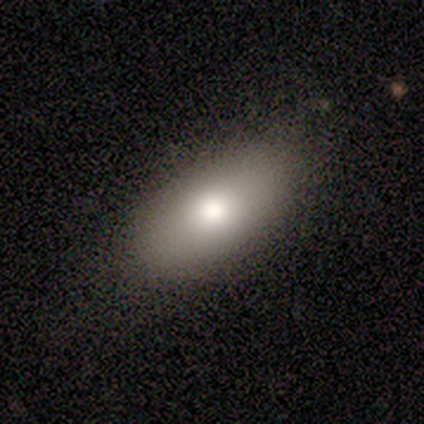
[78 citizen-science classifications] A smooth galaxy with no disk features (77%) that is in between round and cigar-shaped (90%).

Vote fractions:
- Smooth or featured? smooth: 77% / featured or disk: 15% / star or artifact: 8%
- How rounded? in between: 90% / round: 5% / cigar-shaped: 5%
- Merging? none: 54% / minor disturbance: 11% / major disturbance: 0% / merger: 0%